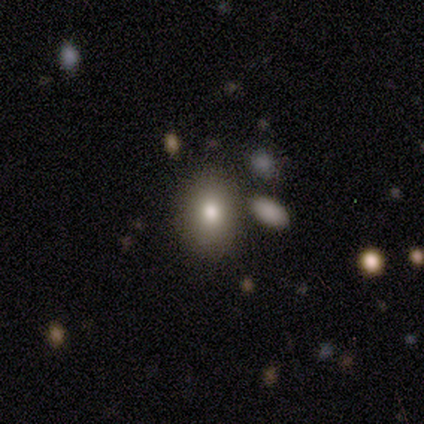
Smooth or featured? 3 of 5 (60%) said smooth. How rounded? 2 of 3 (67%) said in between. Merging? 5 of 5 (100%) said none.